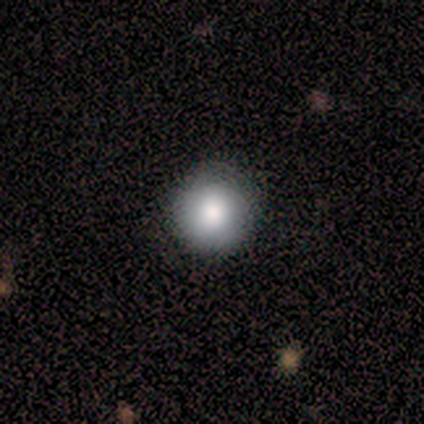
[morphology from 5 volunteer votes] Consensus on every question: smooth or featured — smooth (100%); how rounded — round (100%); merging — none (100%).